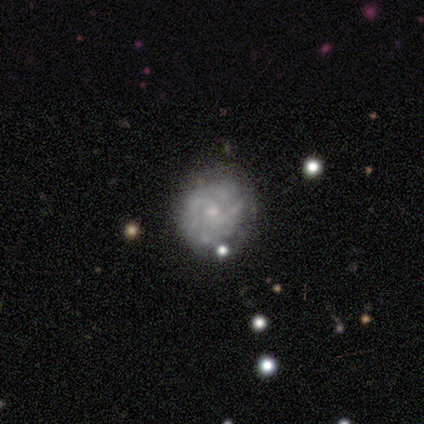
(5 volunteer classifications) Smooth or featured?
  - featured or disk: 60% *
  - smooth: 40%
  - star or artifact: 0%
Edge-on disk?
  - no: 100% *
  - yes: 0%
Bar?
  - no: 100% *
  - strong: 0%
  - weak: 0%
Spiral arms?
  - no: 100% *
  - yes: 0%
Bulge size?
  - none: 67% *
  - small: 33%
  - dominant: 0%
  - large: 0%
  - moderate: 0%
Merging?
  - none: 100% *
  - minor disturbance: 0%
  - major disturbance: 0%
  - merger: 0%